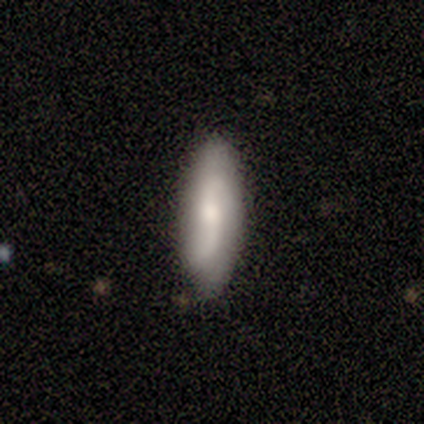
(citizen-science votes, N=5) smooth 60%, featured or disk 40%, star or artifact 0%. Down the decision tree: how rounded — cigar-shaped (67%); merging — none (100%).